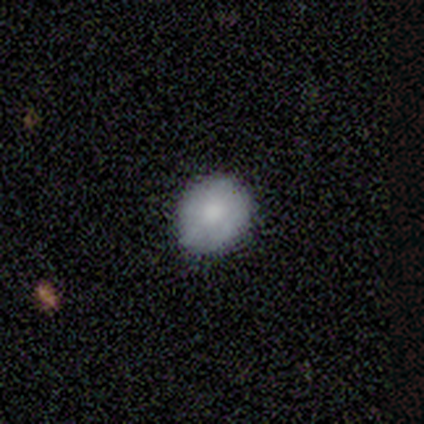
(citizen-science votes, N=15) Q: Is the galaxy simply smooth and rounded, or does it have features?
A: smooth — 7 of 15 (47%).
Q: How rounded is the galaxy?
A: round — 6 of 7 (86%).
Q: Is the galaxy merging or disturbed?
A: none — 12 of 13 (92%).